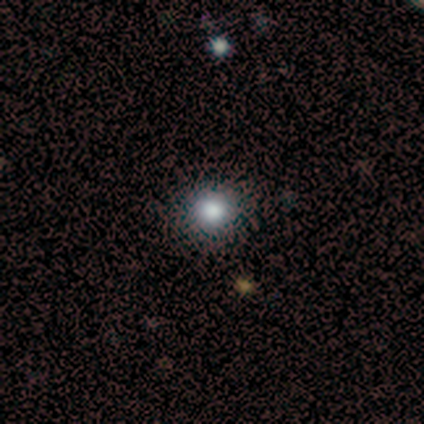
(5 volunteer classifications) Morphology: type=smooth (80%); roundness=round (100%); merging=none (100%).